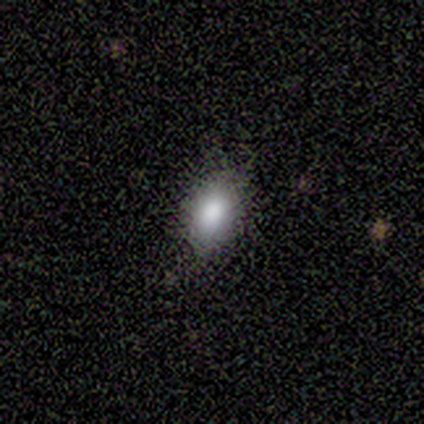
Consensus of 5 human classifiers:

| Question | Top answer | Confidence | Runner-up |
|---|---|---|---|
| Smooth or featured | smooth | 100% | — |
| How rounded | in between | 100% | — |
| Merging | none | 80% | minor disturbance (20%) |